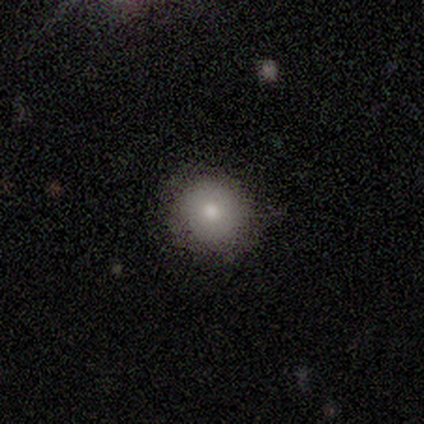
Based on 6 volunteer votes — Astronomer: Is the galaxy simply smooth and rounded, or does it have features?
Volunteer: smooth — 83%.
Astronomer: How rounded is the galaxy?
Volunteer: round — 100%.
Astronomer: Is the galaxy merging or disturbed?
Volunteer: none — 100%.